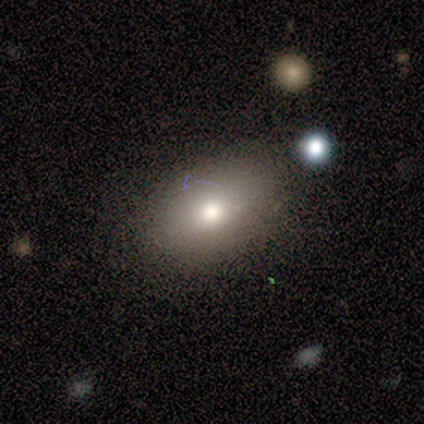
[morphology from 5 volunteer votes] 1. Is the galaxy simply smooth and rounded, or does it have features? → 60% smooth, 20% featured or disk, 20% star or artifact.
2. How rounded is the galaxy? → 100% in between, 0% round, 0% cigar-shaped.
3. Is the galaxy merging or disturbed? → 100% none, 0% minor disturbance, 0% major disturbance, 0% merger.